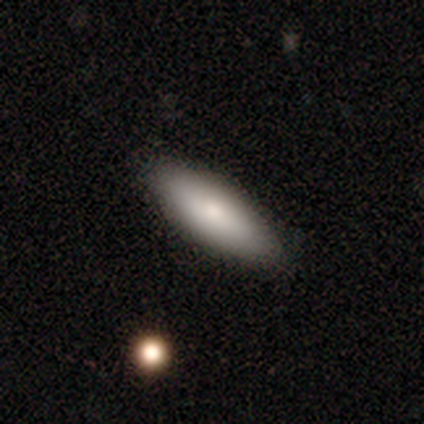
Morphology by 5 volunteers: Volunteers were most divided on "merging": none: 75%, minor disturbance: 25%, major disturbance: 0%, merger: 0%. More confident: how rounded — in between (100%); smooth or featured — smooth (80%).